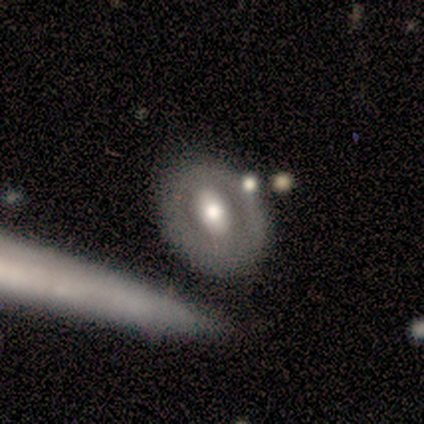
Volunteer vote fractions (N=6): A featured or disk galaxy (83%) with a strong bar (60%), no spiral arms (100%) and a moderate central bulge (100%).

Vote fractions:
- Smooth or featured? featured or disk: 83% / smooth: 17% / star or artifact: 0%
- Edge-on disk? no: 100% / yes: 0%
- Bar? strong: 60% / weak: 20% / no: 20%
- Spiral arms? no: 100% / yes: 0%
- Bulge size? moderate: 100% / dominant: 0% / large: 0% / small: 0% / none: 0%
- Merging? none: 100% / minor disturbance: 0% / major disturbance: 0% / merger: 0%